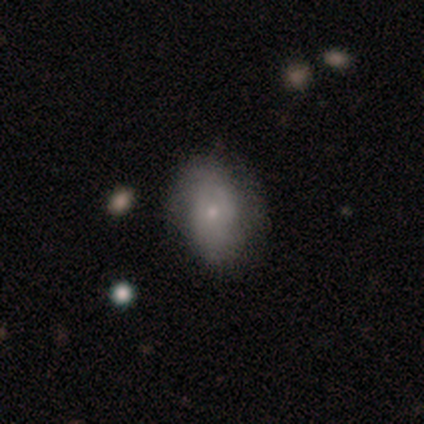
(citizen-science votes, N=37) Smooth or featured? 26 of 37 (70%) said smooth. How rounded? 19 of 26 (73%) said in between. Merging? 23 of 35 (66%) said none.